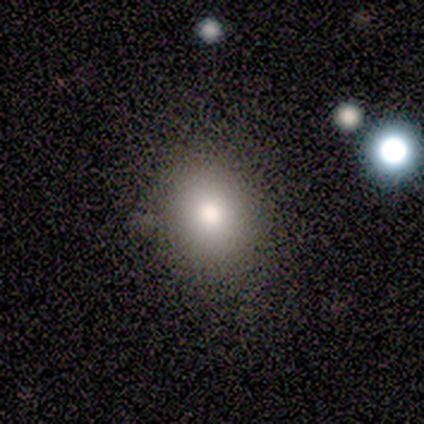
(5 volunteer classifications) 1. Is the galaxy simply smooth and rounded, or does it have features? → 80% smooth, 20% featured or disk, 0% star or artifact.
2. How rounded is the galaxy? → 100% round, 0% in between, 0% cigar-shaped.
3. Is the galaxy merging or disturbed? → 100% none, 0% minor disturbance, 0% major disturbance, 0% merger.